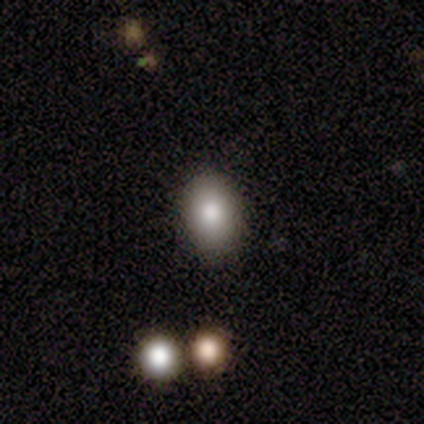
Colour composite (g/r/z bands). It shows a smooth galaxy with no disk features (92%) that is in between round and cigar-shaped (91%). Merging: none (82%).